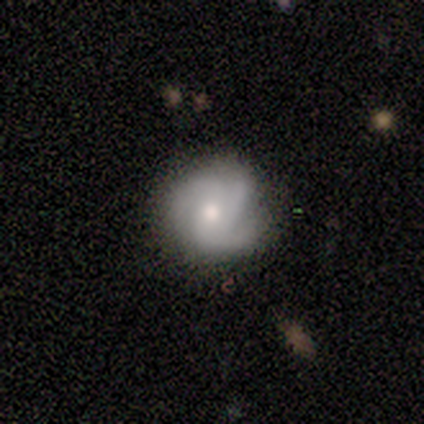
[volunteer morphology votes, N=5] A smooth galaxy with no disk features (60%) that is round (100%).

Vote fractions:
- Smooth or featured? smooth: 60% / featured or disk: 40% / star or artifact: 0%
- How rounded? round: 100% / in between: 0% / cigar-shaped: 0%
- Merging? none: 40% (tied) / major disturbance: 40% (tied) / minor disturbance: 20% / merger: 0%